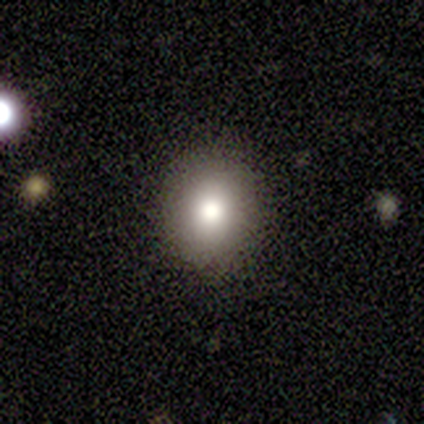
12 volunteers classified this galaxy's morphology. Overall: smooth (58%; star or artifact 33%). How rounded: round (57%; in between 43%). Merging: none (100%).